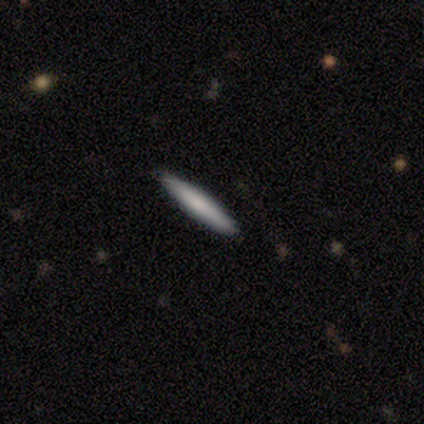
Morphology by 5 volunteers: Volunteers were most divided on "smooth or featured": smooth: 80%, star or artifact: 20%, featured or disk: 0%. More confident: how rounded — cigar-shaped (100%); merging — none (100%).